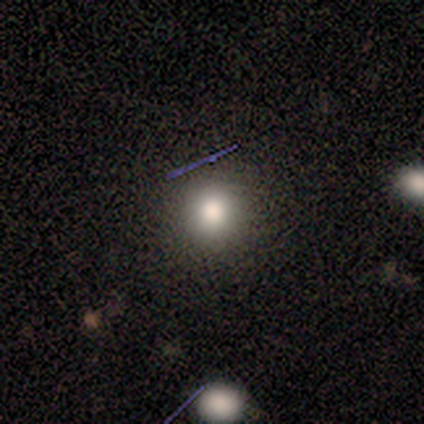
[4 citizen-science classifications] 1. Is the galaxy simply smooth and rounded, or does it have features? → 75% smooth, 25% featured or disk, 0% star or artifact.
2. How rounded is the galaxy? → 100% round, 0% in between, 0% cigar-shaped.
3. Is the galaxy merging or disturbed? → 75% none, 25% minor disturbance, 0% major disturbance, 0% merger.